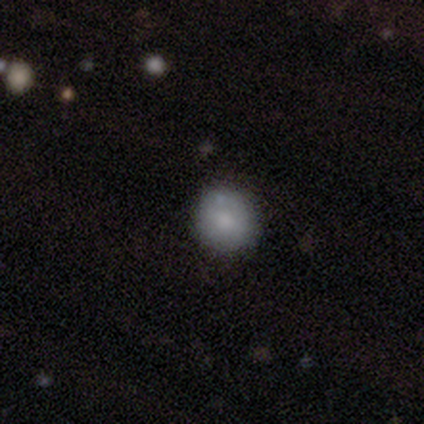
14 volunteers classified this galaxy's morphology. Smooth or featured: smooth — 93% (star or artifact — 7%)
How rounded: round — 77% (in between — 23%)
Merging: none — 100%